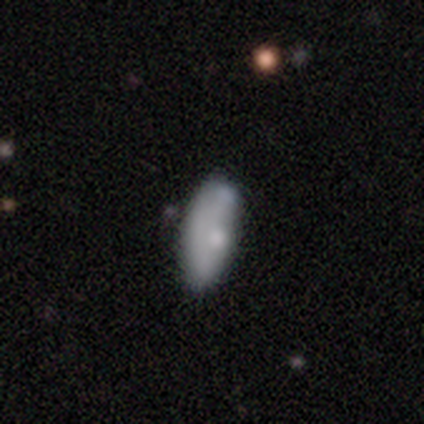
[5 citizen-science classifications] smooth-or-featured: smooth: 100% | featured or disk: 0% | star or artifact: 0%
  how-rounded: in between: 100% | round: 0% | cigar-shaped: 0%
  merging: none: 60% | minor disturbance: 20% | major disturbance: 20% | merger: 0%